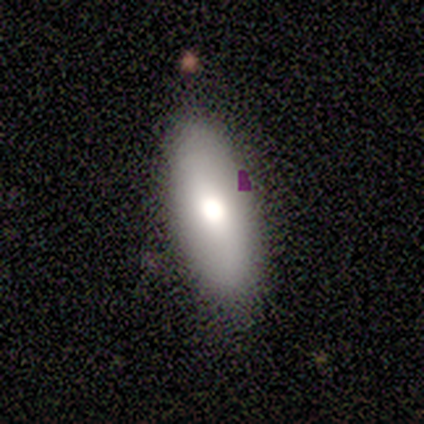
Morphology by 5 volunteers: Smooth or featured? 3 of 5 (60%) said smooth. How rounded? 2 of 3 (67%) said in between. Merging? 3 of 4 (75%) said none.